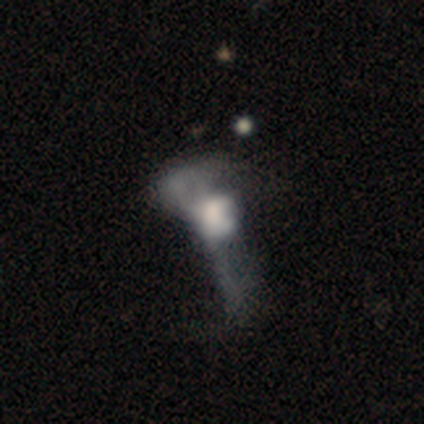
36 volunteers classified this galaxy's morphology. A featured or disk galaxy (61%) with no bar (86%), no spiral arms (81%) and a large central bulge (38%). Merging: major disturbance (48%).